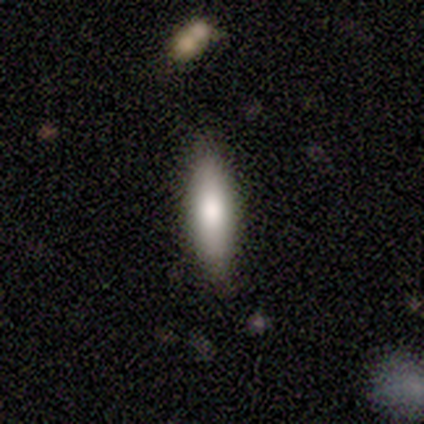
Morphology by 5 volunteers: smooth 100%, featured or disk 0%, star or artifact 0%. Down the decision tree: how rounded — cigar-shaped (80%); merging — none (80%).